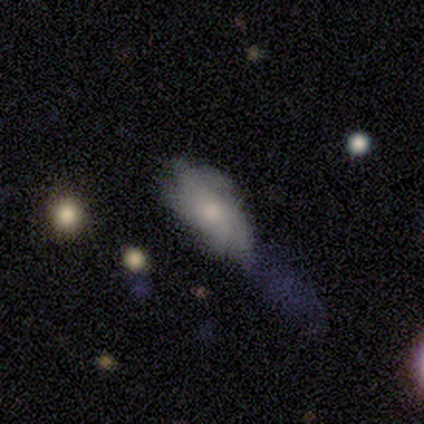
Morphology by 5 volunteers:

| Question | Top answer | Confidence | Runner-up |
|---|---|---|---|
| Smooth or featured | smooth | 80% | featured or disk (20%) |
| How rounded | in between | 100% | — |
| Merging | none | 60% | minor disturbance (20%) |